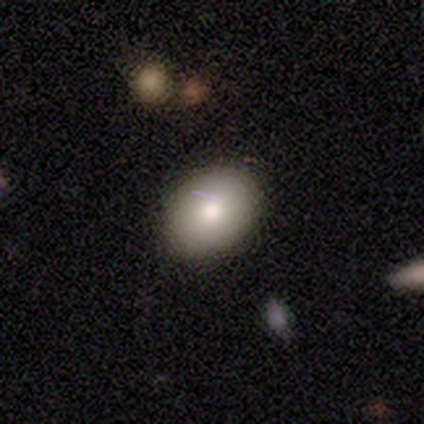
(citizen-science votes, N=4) This is possibly a smooth galaxy (50%, tied with featured or disk). How rounded: clearly in between (100%). Merging: possibly none (50%).